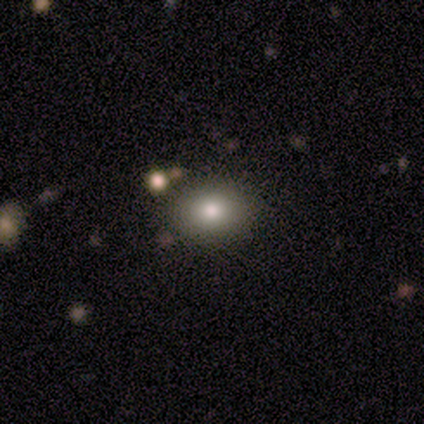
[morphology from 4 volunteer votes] smooth-or-featured: smooth: 100% | featured or disk: 0% | star or artifact: 0%
  how-rounded: in between: 75% | round: 25% | cigar-shaped: 0%
  merging: none: 75% | major disturbance: 25% | minor disturbance: 0% | merger: 0%